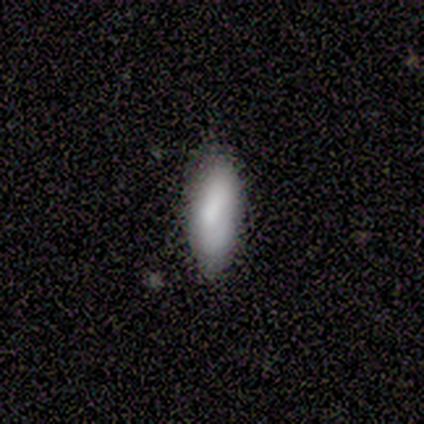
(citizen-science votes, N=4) A smooth galaxy with no disk features (100%) that is in between round and cigar-shaped (50%, tied with cigar-shaped). Merging: none (75%).